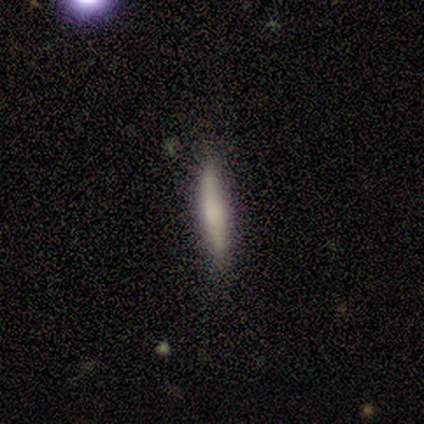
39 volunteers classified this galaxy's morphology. This is possibly a smooth galaxy (54%). How rounded: clearly cigar-shaped (90%). Merging: clearly none (82%).